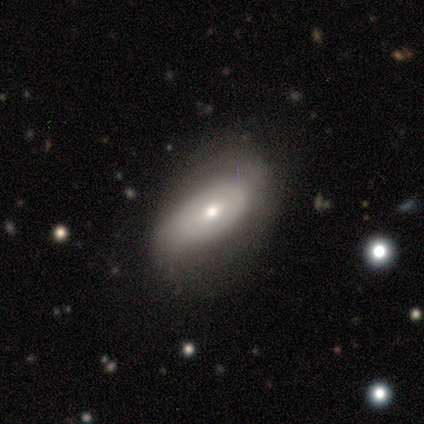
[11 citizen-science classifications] Volunteers were most divided on "smooth or featured" (2-way tie): smooth: 45%, featured or disk: 45%, star or artifact: 9%. More confident: how rounded — in between (80%); merging — none (80%).